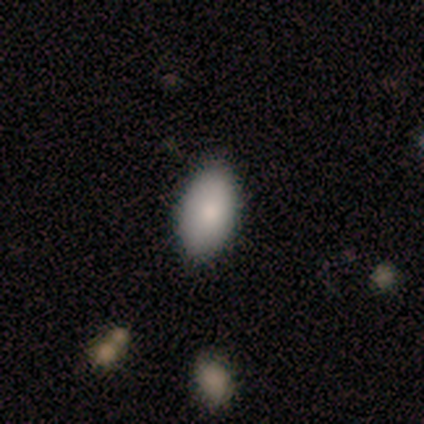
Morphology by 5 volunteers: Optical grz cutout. It shows a smooth galaxy with no disk features (100%) that is in between round and cigar-shaped (100%). Merging: none (80%).